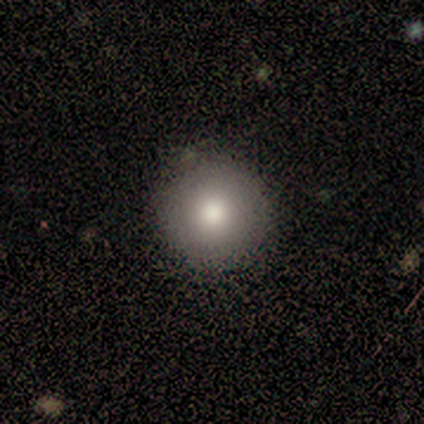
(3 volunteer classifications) A smooth galaxy with no disk features (100%) that is round (100%). Merging: none (100%).